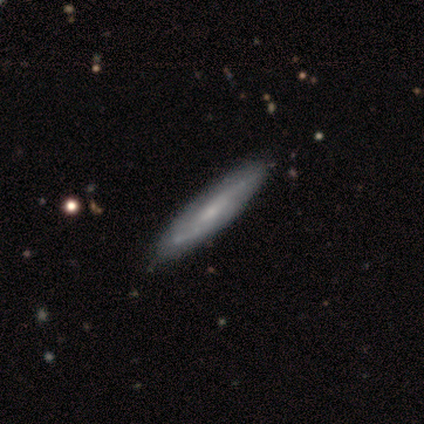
Smooth or featured? 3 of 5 (60%) said featured or disk. Edge-on disk? 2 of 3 (67%) said no. Bar? 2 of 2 (100%) said weak. Spiral arms? 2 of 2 (100%) said no. Bulge size? 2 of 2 (100%) said small. Merging? 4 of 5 (80%) said none.